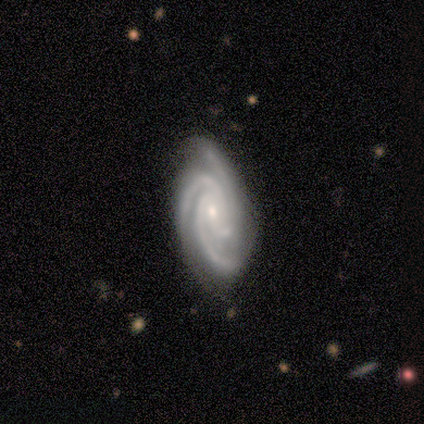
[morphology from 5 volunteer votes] featured or disk 80%, smooth 20%, star or artifact 0%. Down the decision tree: edge-on disk — no (100%); bar — weak (50%); spiral arms — yes (100%); spiral arm count — 3 (75%); spiral winding — tight (75%); bulge size — moderate (50%, tied with small); merging — none (80%).